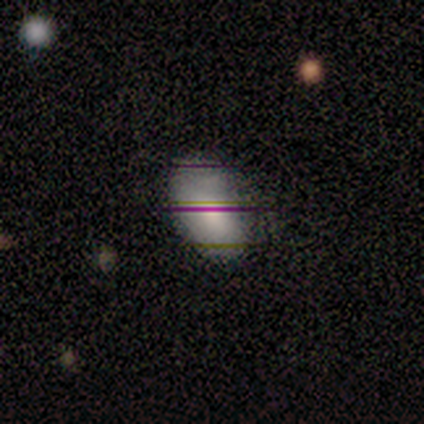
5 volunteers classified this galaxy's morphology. This is clearly a smooth galaxy (100%). How rounded: clearly in between (80%). Merging: clearly none (80%).